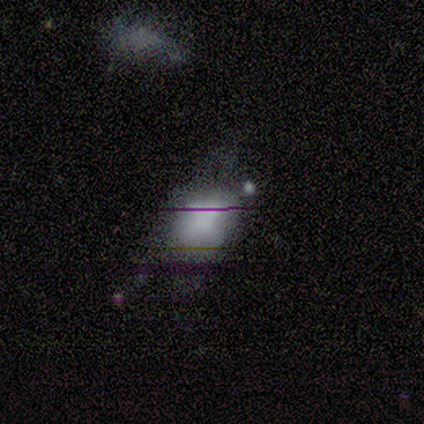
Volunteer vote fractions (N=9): smooth_or_featured: smooth (p=0.78) [alt: star or artifact p=0.22]
how_rounded: in between (p=1.00)
merging: major disturbance (p=0.43) [alt: none p=0.29]